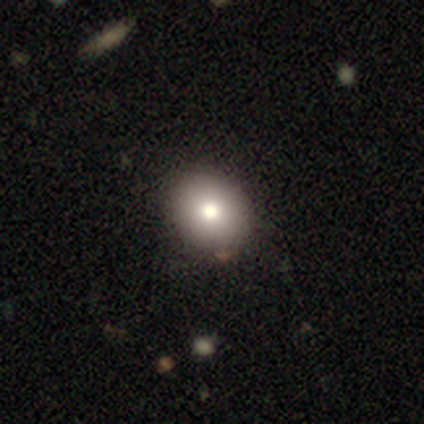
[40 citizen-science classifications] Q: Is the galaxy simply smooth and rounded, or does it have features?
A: smooth — 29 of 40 (72%).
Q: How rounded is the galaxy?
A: round — 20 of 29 (69%).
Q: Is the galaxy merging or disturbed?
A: none — 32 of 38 (84%).